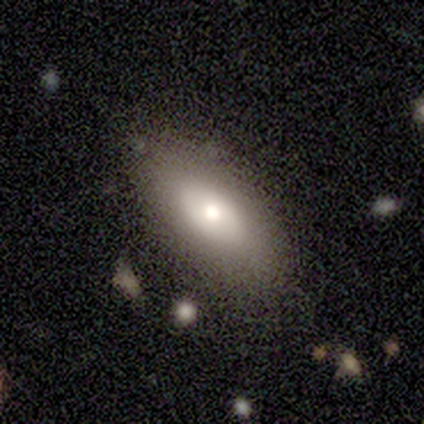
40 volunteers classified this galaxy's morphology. Smooth or featured? 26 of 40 (65%) said smooth. How rounded? 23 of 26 (88%) said in between. Merging? 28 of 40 (70%) said none.